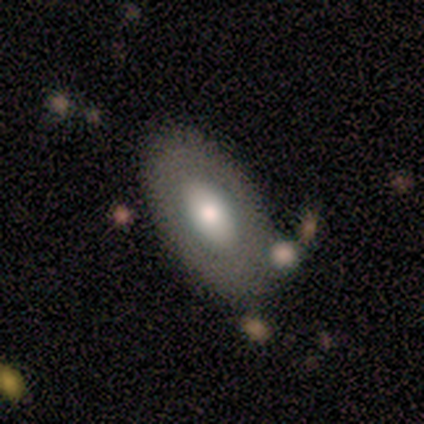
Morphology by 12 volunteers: Smooth or featured? smooth (75%)
How rounded? in between (67%)
Merging? none (75%)